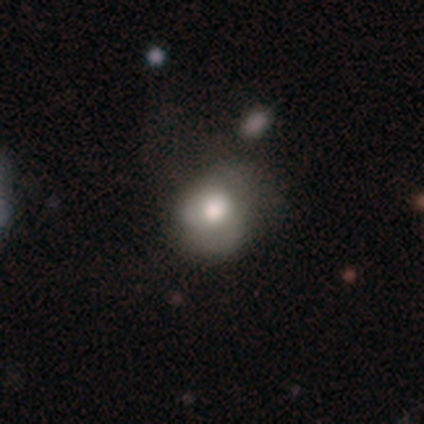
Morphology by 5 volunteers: Q: Smooth or featured?
A: smooth (60%); runner-up: featured or disk (40%)
Q: How rounded?
A: round (100%)
Q: Merging?
A: none (40%); tied with: minor disturbance (40%)